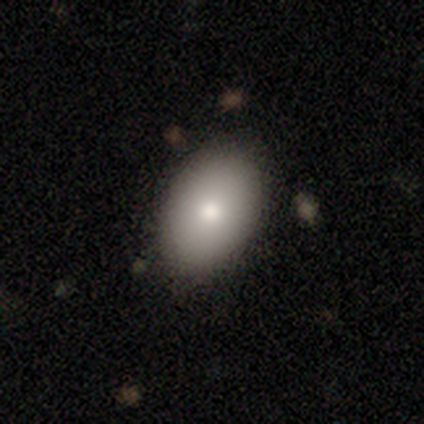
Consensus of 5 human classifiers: Smooth or featured? smooth (60%)
How rounded? in between (100%)
Merging? none (75%)